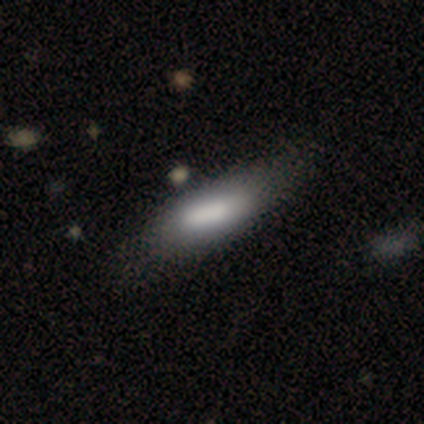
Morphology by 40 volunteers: type=smooth (78%); roundness=in between (65%); merging=none (38%).